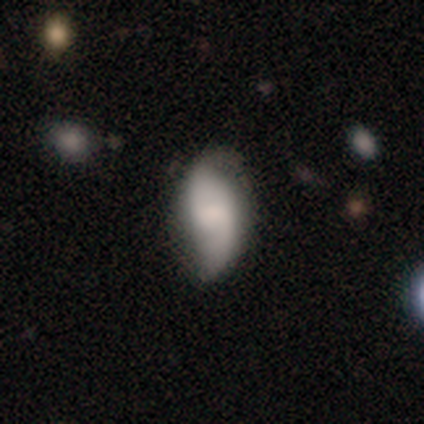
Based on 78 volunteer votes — A smooth galaxy with no disk features (49%, tied with featured or disk) that is in between round and cigar-shaped (87%). Merging: none (21%, tied with minor disturbance).